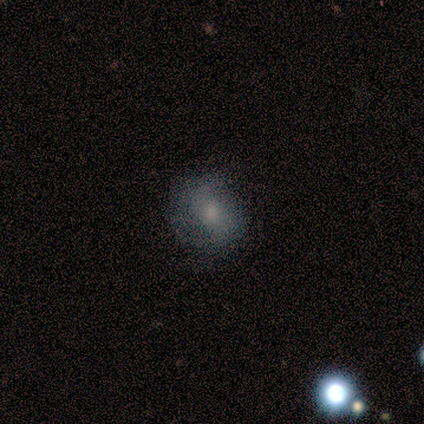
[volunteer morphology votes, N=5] type=smooth (80%); roundness=in between (75%); merging=none (60%).